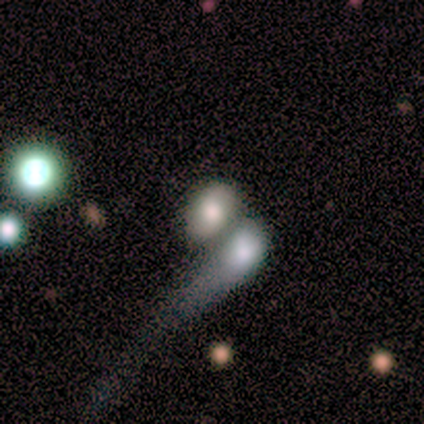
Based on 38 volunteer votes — This is possibly a smooth galaxy (58%). How rounded: likely in between (77%). Merging: likely merger (73%).